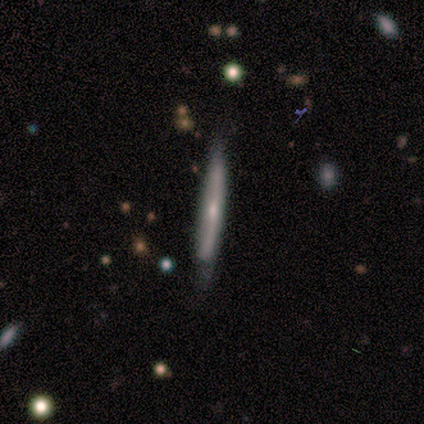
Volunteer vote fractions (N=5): Smooth or featured: featured or disk — 80% (star or artifact — 20%)
Edge-on disk: yes — 100%
Edge-on bulge: none — 75% (rounded — 25%)
Merging: none — 50% (tied with minor disturbance — 50%)